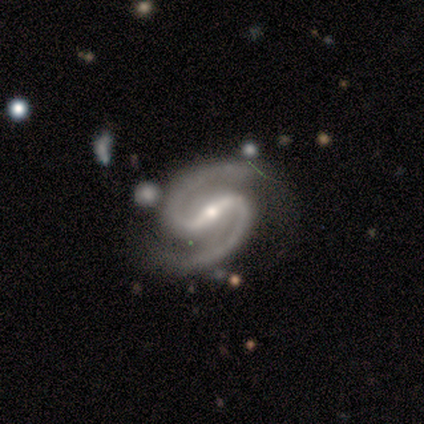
Q: Smooth or featured?
A: featured or disk (100%)
Q: Edge-on disk?
A: no (100%)
Q: Bar?
A: strong (71%); runner-up: no (29%)
Q: Spiral arms?
A: yes (100%)
Q: Spiral winding?
A: medium (71%); runner-up: tight (29%)
Q: Spiral arm count?
A: 2 (100%)
Q: Bulge size?
A: small (86%); runner-up: moderate (14%)
Q: Merging?
A: none (100%)